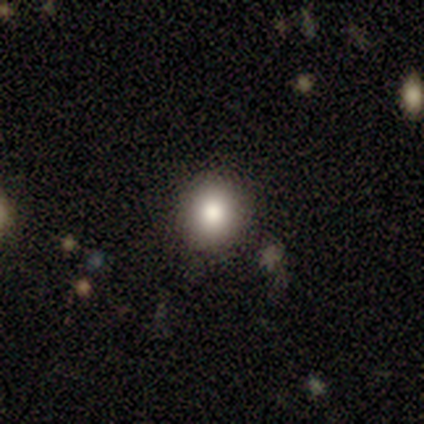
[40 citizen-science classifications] Volunteers were most divided on "smooth or featured": smooth: 65%, star or artifact: 25%, featured or disk: 10%. More confident: how rounded — round (92%); merging — none (90%).